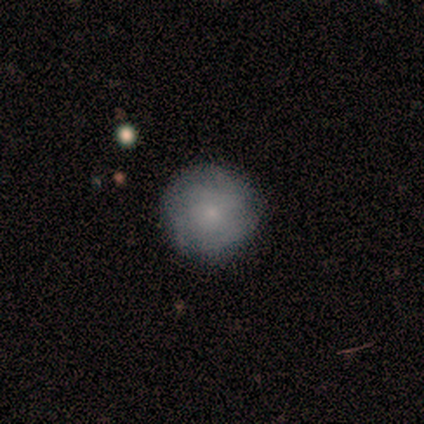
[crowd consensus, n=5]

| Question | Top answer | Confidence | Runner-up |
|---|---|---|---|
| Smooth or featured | smooth | 60% | featured or disk (20%) |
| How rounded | round | 100% | — |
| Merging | none | 100% | — |